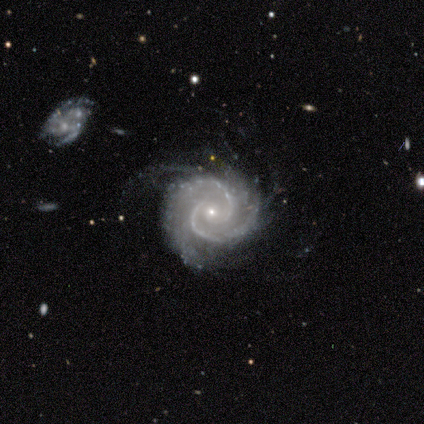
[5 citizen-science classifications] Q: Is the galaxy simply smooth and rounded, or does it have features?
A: featured or disk — 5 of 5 (100%).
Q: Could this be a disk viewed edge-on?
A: no — 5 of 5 (100%).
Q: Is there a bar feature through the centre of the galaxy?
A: no — 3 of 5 (60%).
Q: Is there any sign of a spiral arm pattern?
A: yes — 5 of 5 (100%).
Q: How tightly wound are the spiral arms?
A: medium — 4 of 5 (80%).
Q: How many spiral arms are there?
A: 2 — 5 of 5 (100%).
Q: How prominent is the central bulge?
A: small — 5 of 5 (100%).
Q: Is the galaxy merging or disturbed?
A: none — 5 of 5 (100%).